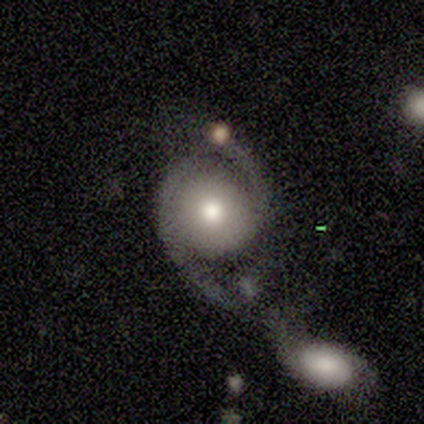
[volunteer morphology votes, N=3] Smooth or featured?
  - smooth: 67% *
  - featured or disk: 33%
  - star or artifact: 0%
How rounded?
  - round: 100% *
  - in between: 0%
  - cigar-shaped: 0%
Merging?
  - merger: 67% *
  - major disturbance: 33%
  - none: 0%
  - minor disturbance: 0%